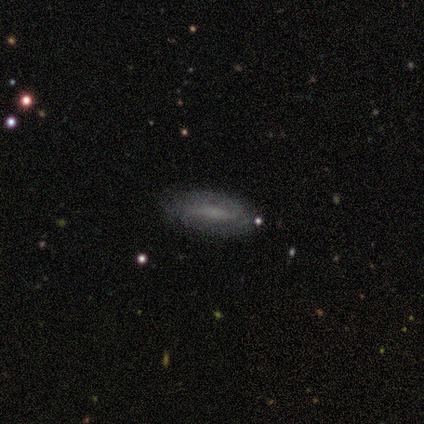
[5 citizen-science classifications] A smooth galaxy with no disk features (80%) that is in between round and cigar-shaped (50%, tied with cigar-shaped).

Vote fractions:
- Smooth or featured? smooth: 80% / featured or disk: 20% / star or artifact: 0%
- How rounded? in between: 50% (tied) / cigar-shaped: 50% (tied) / round: 0%
- Merging? none: 100% / minor disturbance: 0% / major disturbance: 0% / merger: 0%